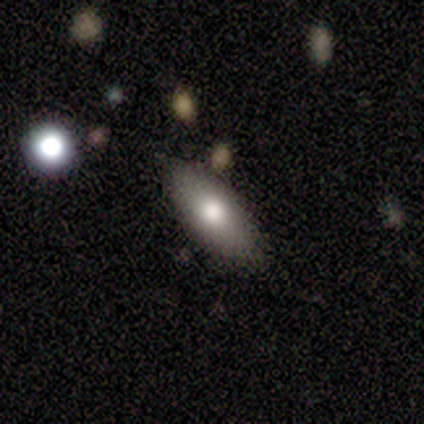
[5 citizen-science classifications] smooth_or_featured: smooth (p=0.80) [alt: featured or disk p=0.20]
how_rounded: in between (p=0.50) [tied with: cigar-shaped p=0.50]
merging: none (p=0.60) [alt: minor disturbance p=0.40]